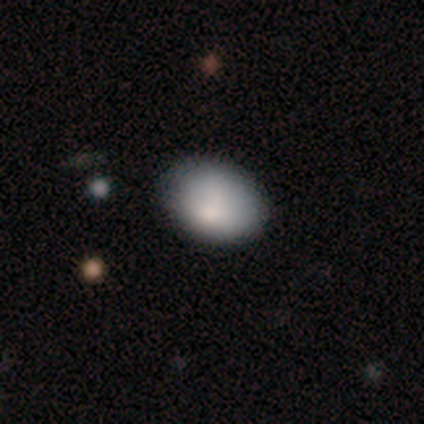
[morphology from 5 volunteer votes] This is clearly a smooth galaxy (100%). How rounded: clearly in between (100%). Merging: clearly none (80%).